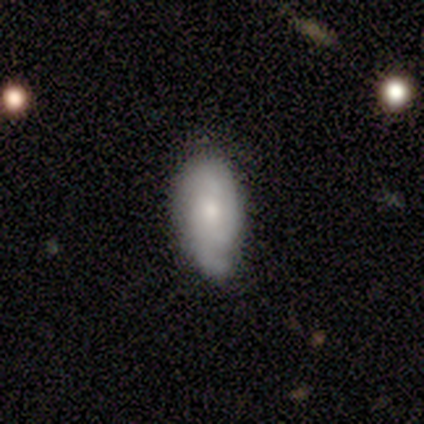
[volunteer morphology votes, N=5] Q: Smooth or featured?
A: smooth (60%); runner-up: featured or disk (40%)
Q: How rounded?
A: in between (100%)
Q: Merging?
A: none (80%); runner-up: minor disturbance (20%)